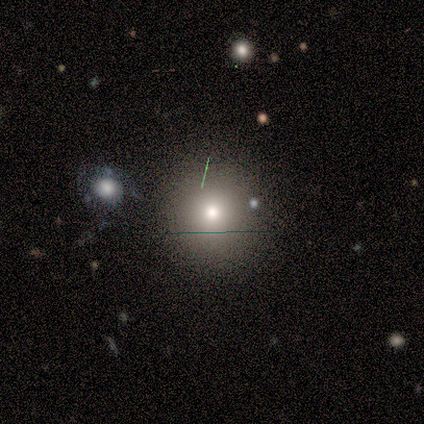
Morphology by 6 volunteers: smooth 83%, featured or disk 17%, star or artifact 0%. Down the decision tree: how rounded — round (100%); merging — none (100%).